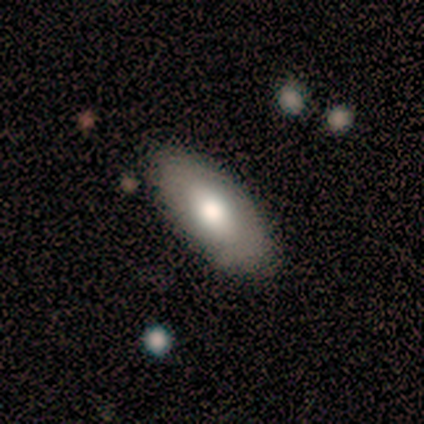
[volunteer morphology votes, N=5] A smooth galaxy with no disk features (100%) that is in between round and cigar-shaped (100%).

Vote fractions:
- Smooth or featured? smooth: 100% / featured or disk: 0% / star or artifact: 0%
- How rounded? in between: 100% / round: 0% / cigar-shaped: 0%
- Merging? none: 60% / minor disturbance: 40% / major disturbance: 0% / merger: 0%